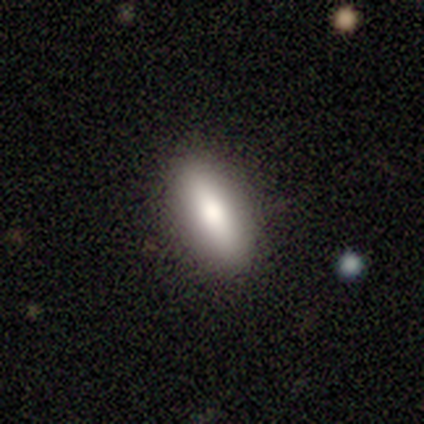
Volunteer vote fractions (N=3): smooth-or-featured: smooth: 33% (tied) | featured or disk: 33% (tied) | star or artifact: 33% (tied)
  how-rounded: in between: 100% | round: 0% | cigar-shaped: 0%
  merging: none: 100% | minor disturbance: 0% | major disturbance: 0% | merger: 0%